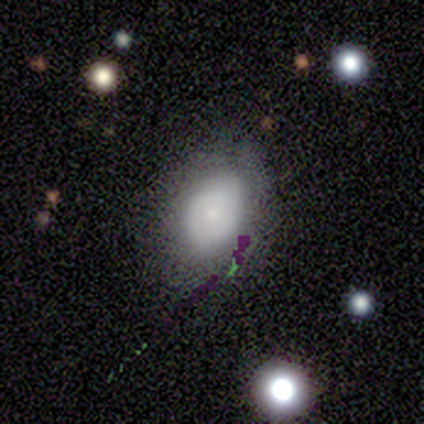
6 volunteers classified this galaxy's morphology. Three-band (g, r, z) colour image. It shows a smooth galaxy with no disk features (67%) that is round (50%, tied with in between). Merging: none (67%).